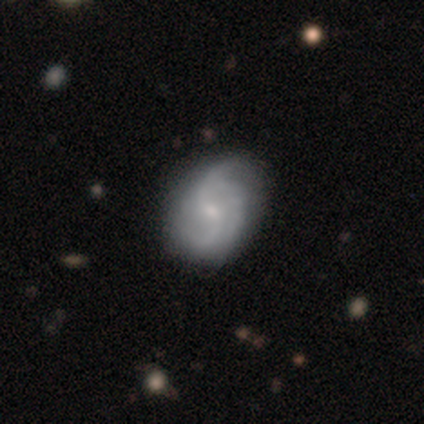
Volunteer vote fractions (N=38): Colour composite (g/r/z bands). It shows a featured or disk galaxy (89%) with no bar (53%), 2 (41%) medium (44%) spiral arms (100%) and a small central bulge (62%). Merging: none (47%).